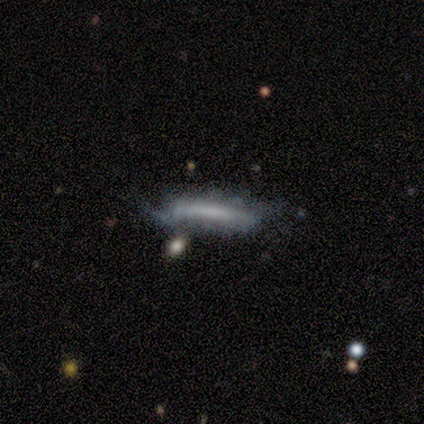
A smooth galaxy with no disk features (75%) that is cigar-shaped (100%). Merging: none (100%).